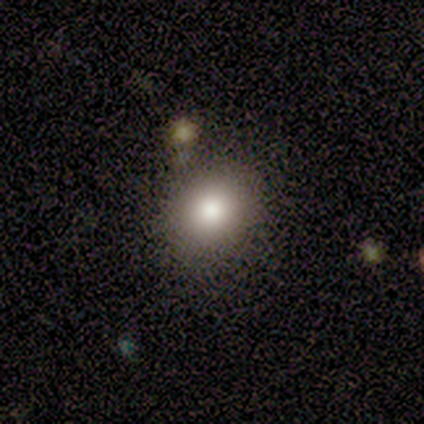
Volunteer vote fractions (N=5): This appears to be a smooth galaxy with no disk features (80%) that is round (50%, tied with in between). Merging: none (75%).